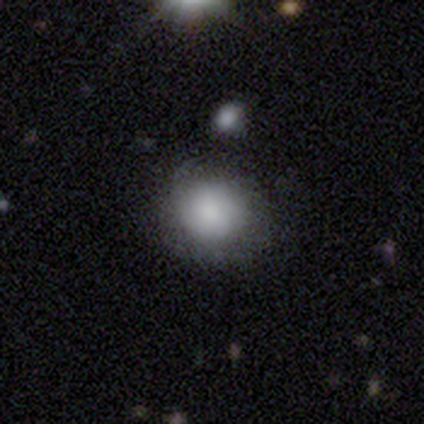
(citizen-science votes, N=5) Volunteers were most divided on "smooth or featured" (2-way tie): smooth: 40%, featured or disk: 40%, star or artifact: 20%. More confident: how rounded — round (100%); merging — none (50%).